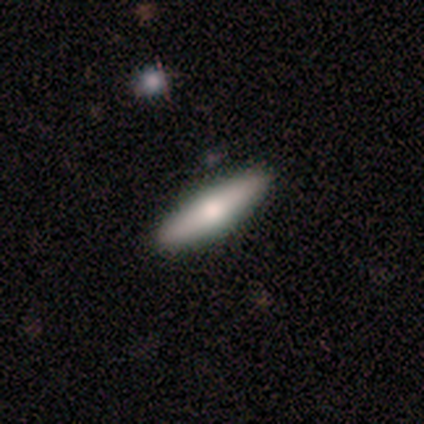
Smooth or featured? smooth (80%)
How rounded? cigar-shaped (100%)
Merging? none (100%)